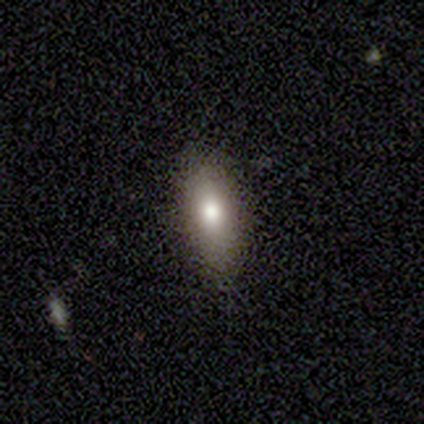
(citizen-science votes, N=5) This appears to be a smooth galaxy with no disk features (80%) that is in between round and cigar-shaped (75%). Merging: none (80%).